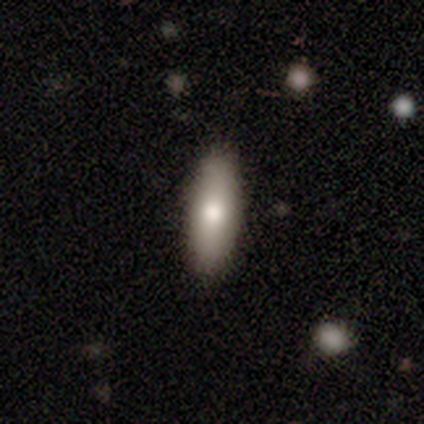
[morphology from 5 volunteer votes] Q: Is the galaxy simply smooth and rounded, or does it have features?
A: smooth — 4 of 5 (80%).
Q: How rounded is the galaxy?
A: in between — 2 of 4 (50%, tied with cigar-shaped).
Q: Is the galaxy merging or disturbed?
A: none — 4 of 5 (80%).